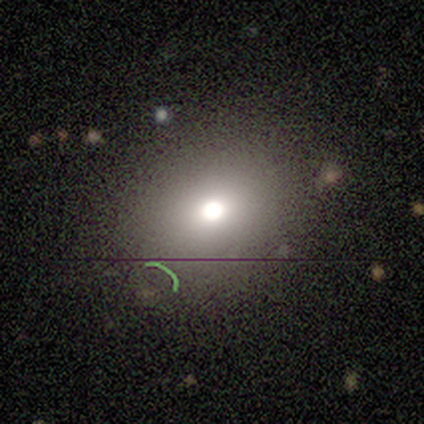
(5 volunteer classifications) Smooth or featured: smooth — 40% (tied with featured or disk — 40%)
How rounded: round — 100%
Merging: none — 100%